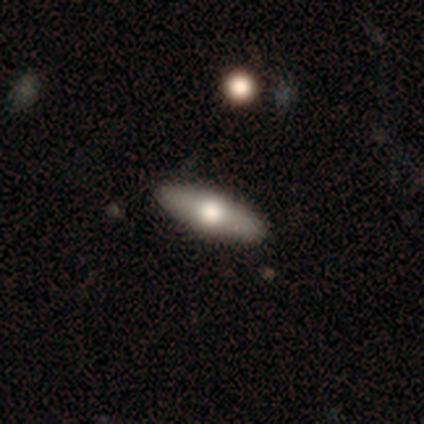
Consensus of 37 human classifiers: Smooth or featured? featured or disk (54%)
Edge-on disk? yes (80%)
Edge-on bulge? rounded (88%)
Merging? none (81%)